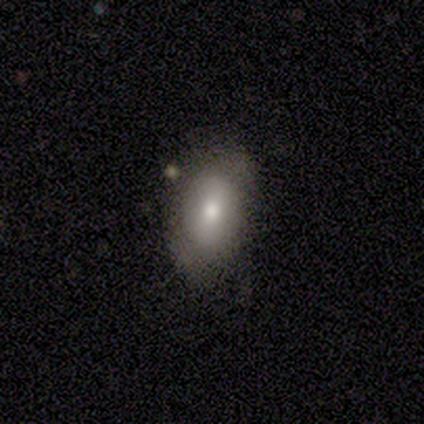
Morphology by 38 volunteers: A smooth galaxy with no disk features (58%) that is in between round and cigar-shaped (82%).

Vote fractions:
- Smooth or featured? smooth: 58% / featured or disk: 34% / star or artifact: 8%
- How rounded? in between: 82% / round: 14% / cigar-shaped: 5%
- Merging? none: 69% / minor disturbance: 23% / major disturbance: 6% / merger: 3%